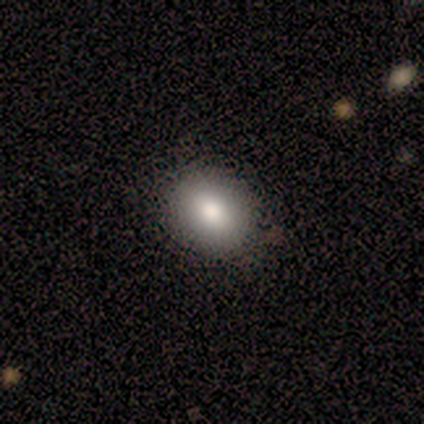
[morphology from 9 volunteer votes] Smooth or featured: smooth — 78% (featured or disk — 11%)
How rounded: in between — 71% (round — 29%)
Merging: none — 88% (minor disturbance — 12%)